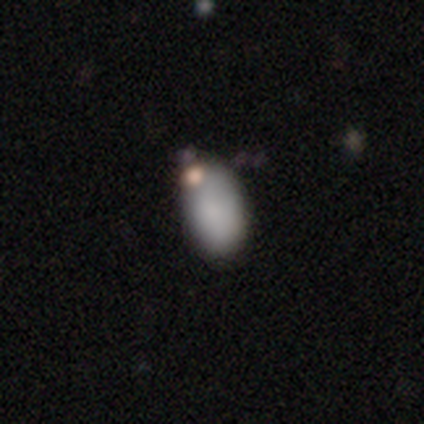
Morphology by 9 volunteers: Smooth or featured: smooth — 78% (star or artifact — 22%)
How rounded: in between — 100%
Merging: none — 86% (merger — 14%)